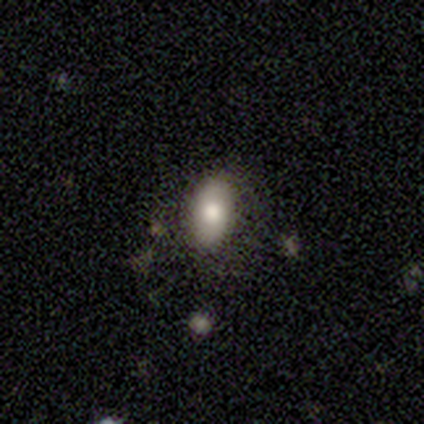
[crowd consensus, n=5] Q: Smooth or featured?
A: smooth (100%)
Q: How rounded?
A: in between (100%)
Q: Merging?
A: none (80%); runner-up: merger (20%)